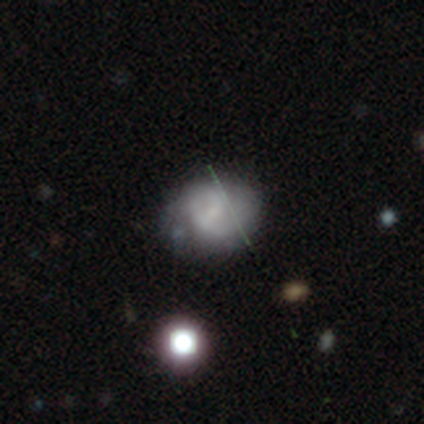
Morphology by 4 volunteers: A smooth galaxy with no disk features (50%, tied with featured or disk) that is in between round and cigar-shaped (100%). Merging: none (75%).